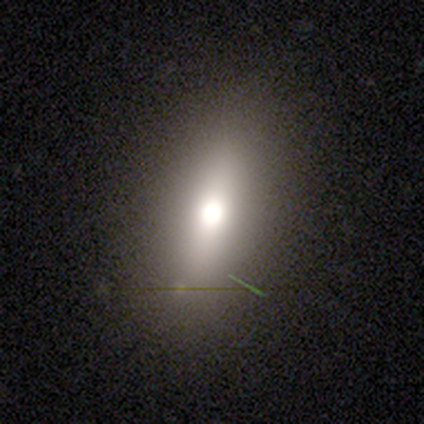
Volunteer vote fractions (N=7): Smooth or featured? 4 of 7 (57%) said featured or disk. Edge-on disk? 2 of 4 (50%, tied with no) said yes. Edge-on bulge? 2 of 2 (100%) said rounded. Merging? 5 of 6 (83%) said none.